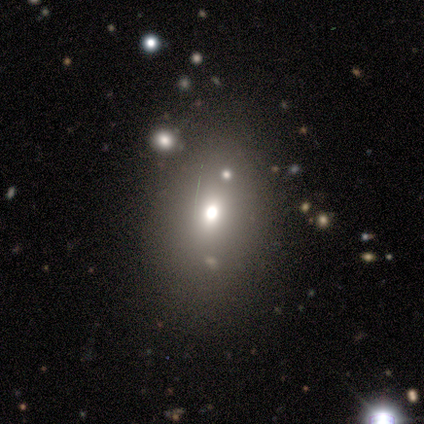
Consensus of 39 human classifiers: A smooth galaxy with no disk features (79%) that is in between round and cigar-shaped (71%).

Vote fractions:
- Smooth or featured? smooth: 79% / star or artifact: 18% / featured or disk: 3%
- How rounded? in between: 71% / round: 23% / cigar-shaped: 6%
- Merging? none: 72% / minor disturbance: 16% / major disturbance: 6% / merger: 6%